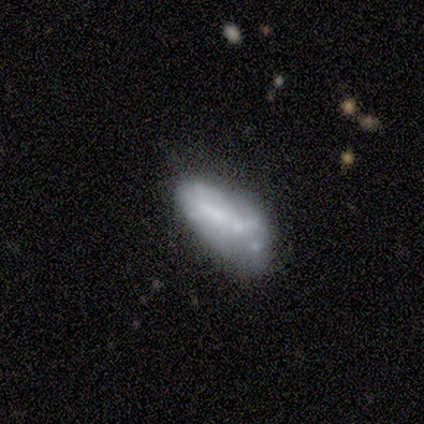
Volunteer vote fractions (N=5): A smooth galaxy with no disk features (60%) that is in between round and cigar-shaped (100%). Merging: merger (40%).